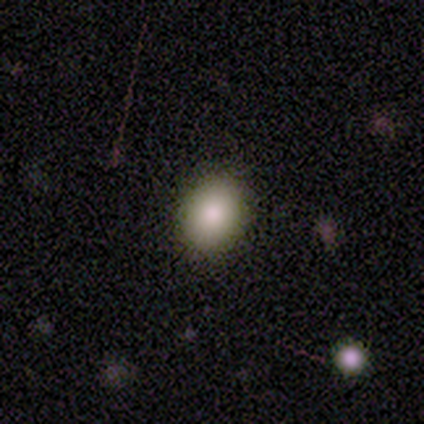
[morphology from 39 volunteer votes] smooth_or_featured: smooth (p=0.87) [alt: featured or disk p=0.08]
how_rounded: in between (p=0.53) [alt: round p=0.47]
merging: none (p=0.92) [alt: minor disturbance p=0.05]